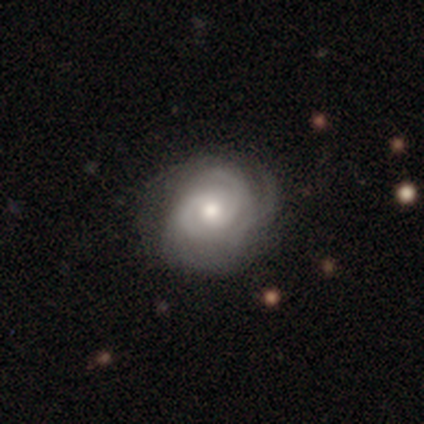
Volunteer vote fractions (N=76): Morphology: type=featured or disk (88%); edge-on=no (100%); bar=no (61%); spiral arms=yes (94%); winding=tight (67%); arm count=2 (41%); bulge=moderate (69%); merging=none (42%).